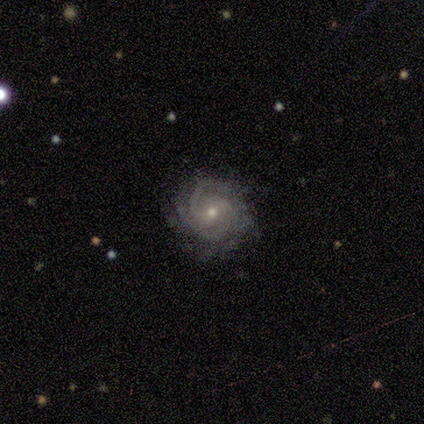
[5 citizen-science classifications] Smooth or featured?
  - featured or disk: 100% *
  - smooth: 0%
  - star or artifact: 0%
Edge-on disk?
  - no: 100% *
  - yes: 0%
Bar?
  - no: 80% *
  - strong: 20%
  - weak: 0%
Spiral arms?
  - yes: 100% *
  - no: 0%
Spiral winding?
  - tight: 60% *
  - medium: 40%
  - loose: 0%
Spiral arm count?
  - 2: 60% *
  - 4: 20%
  - can't tell: 20%
  - 1: 0%
  - 3: 0%
  - more than 4: 0%
Bulge size?
  - moderate: 80% *
  - small: 20%
  - dominant: 0%
  - large: 0%
  - none: 0%
Merging?
  - none: 80% *
  - minor disturbance: 20%
  - major disturbance: 0%
  - merger: 0%